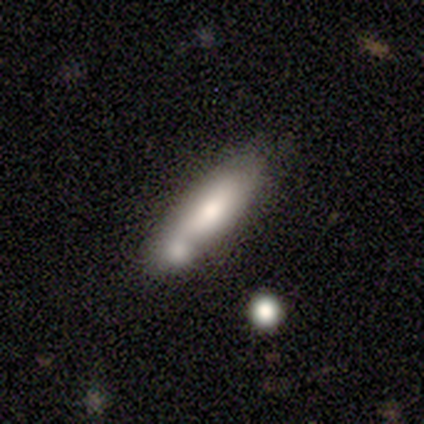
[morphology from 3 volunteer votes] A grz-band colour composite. It shows a featured or disk galaxy (100%) viewed edge-on (67%) with a boxy central bulge (50%, tied with none). Merging: merger (67%).